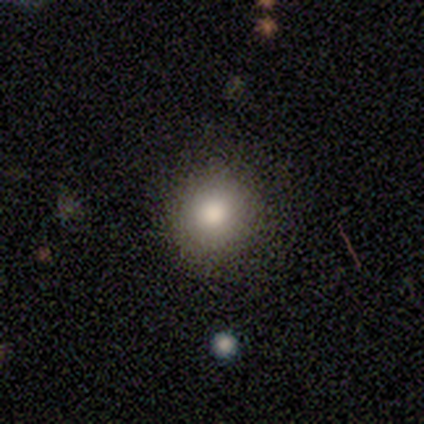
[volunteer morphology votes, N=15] Smooth or featured? 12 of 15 (80%) said smooth. How rounded? 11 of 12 (92%) said round. Merging? 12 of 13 (92%) said none.